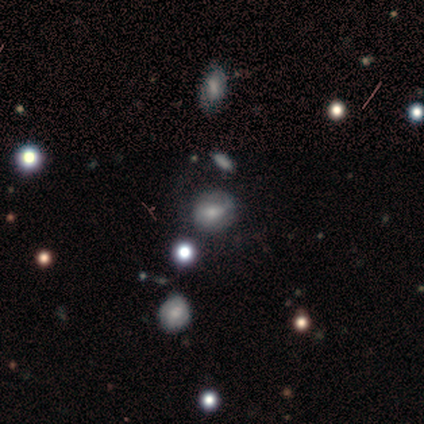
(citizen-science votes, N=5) smooth 80%, star or artifact 20%, featured or disk 0%. Down the decision tree: how rounded — round (100%); merging — none (75%).